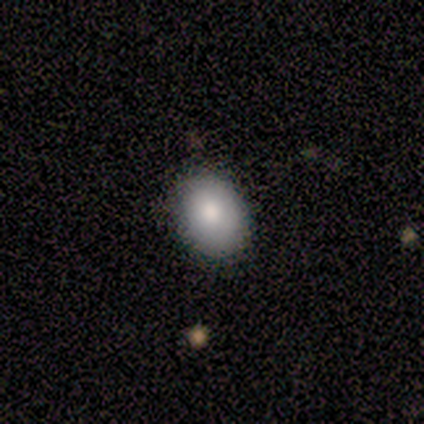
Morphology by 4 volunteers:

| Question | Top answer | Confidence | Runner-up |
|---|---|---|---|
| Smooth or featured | smooth | 100% | — |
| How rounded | in between | 75% | cigar-shaped (25%) |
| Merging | none | 50% | minor disturbance (25%) |